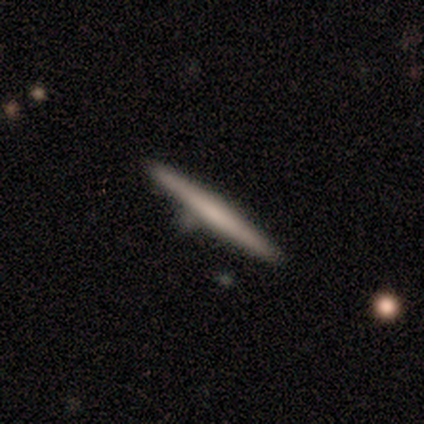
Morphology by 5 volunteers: featured or disk 60%, smooth 40%, star or artifact 0%. Down the decision tree: edge-on disk — yes (100%); edge-on bulge — none (100%); merging — none (100%).